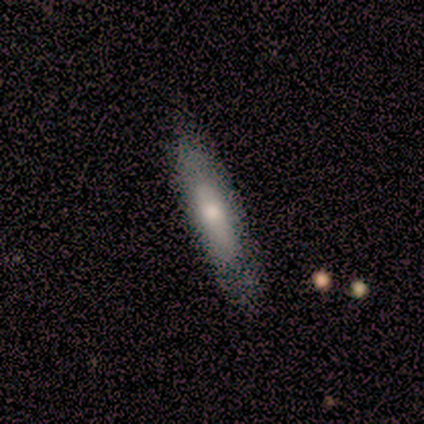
Morphology: type=smooth (60%); roundness=cigar-shaped (67%); merging=none (80%).